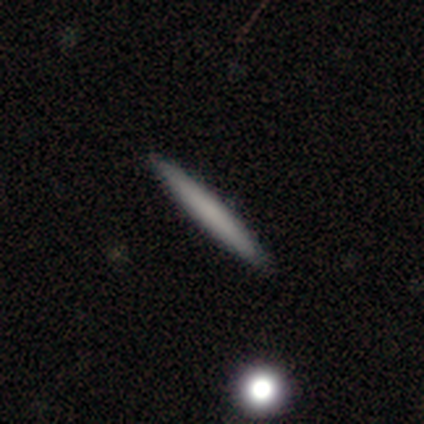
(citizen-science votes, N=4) This appears to be a smooth galaxy with no disk features (50%, tied with featured or disk) that is cigar-shaped (100%). Merging: none (50%, tied with minor disturbance).